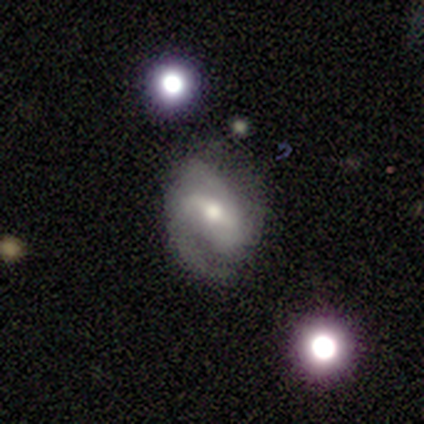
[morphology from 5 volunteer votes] A featured or disk galaxy (60%) with a weak bar (67%), 2 (100%) medium (67%) spiral arms (100%) and a moderate central bulge (100%). Merging: none (75%).